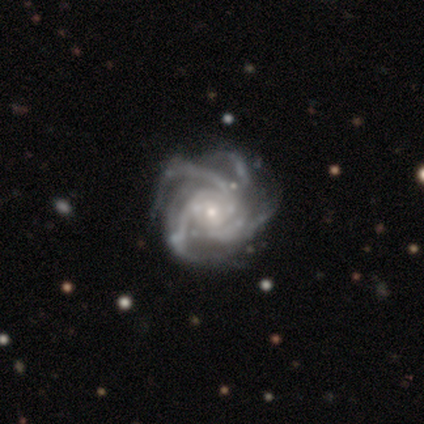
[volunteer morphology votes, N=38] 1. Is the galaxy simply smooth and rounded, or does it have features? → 97% featured or disk, 3% star or artifact, 0% smooth.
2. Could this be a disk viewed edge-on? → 100% no, 0% yes.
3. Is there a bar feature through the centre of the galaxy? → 78% no, 19% weak, 3% strong.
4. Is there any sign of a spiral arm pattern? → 100% yes, 0% no.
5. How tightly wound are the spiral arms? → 57% tight, 35% medium, 8% loose.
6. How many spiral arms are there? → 73% 4, 14% more than 4, 11% 3, 3% can't tell, 0% 1, 0% 2.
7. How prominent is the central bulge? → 73% small, 27% moderate, 0% dominant, 0% large, 0% none.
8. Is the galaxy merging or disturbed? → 46% none, 11% minor disturbance, 8% major disturbance, 0% merger.